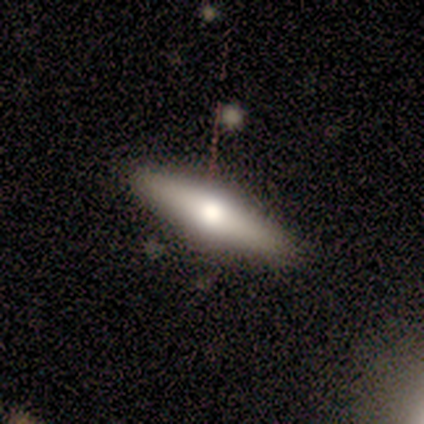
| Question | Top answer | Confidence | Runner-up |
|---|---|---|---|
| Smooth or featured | smooth | 80% | featured or disk (20%) |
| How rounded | cigar-shaped | 100% | — |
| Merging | none | 100% | — |